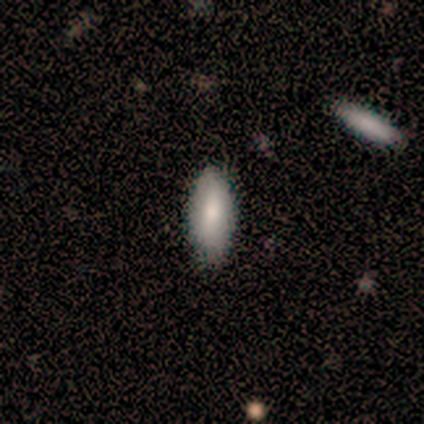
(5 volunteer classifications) Morphology: type=smooth (60%); roundness=in between (100%); merging=none (80%).